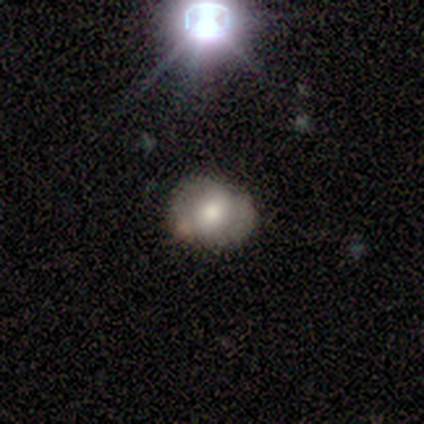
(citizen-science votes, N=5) Smooth or featured?
  - smooth: 40% * (tied)
  - featured or disk: 40% * (tied)
  - star or artifact: 20%
How rounded?
  - round: 50% * (tied)
  - in between: 50% * (tied)
  - cigar-shaped: 0%
Merging?
  - none: 50% *
  - minor disturbance: 25%
  - major disturbance: 25%
  - merger: 0%